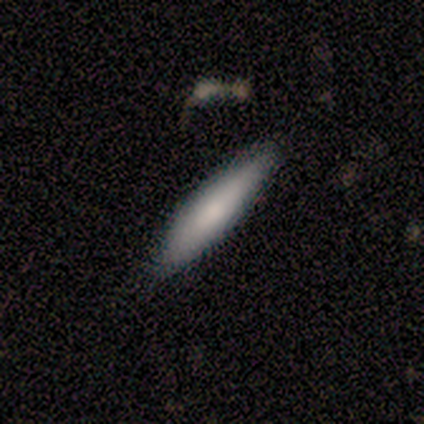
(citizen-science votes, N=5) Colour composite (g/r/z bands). It shows a smooth galaxy with no disk features (100%) that is cigar-shaped (100%). Merging: none (80%).